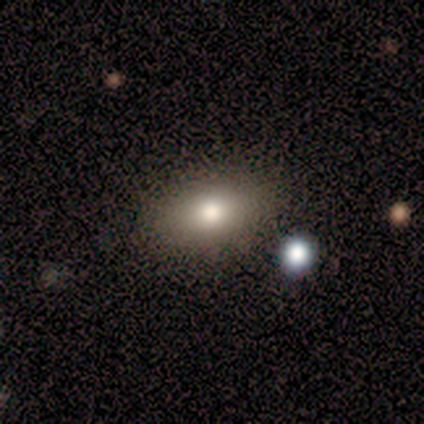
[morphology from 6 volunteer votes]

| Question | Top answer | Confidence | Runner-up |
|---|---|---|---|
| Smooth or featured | smooth | 50% | featured or disk (33%) |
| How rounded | in between | 67% | round (33%) |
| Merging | none | 80% | merger (20%) |